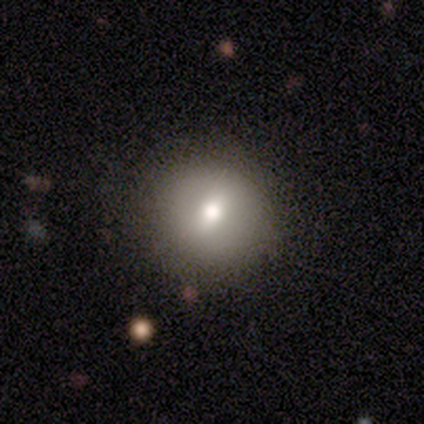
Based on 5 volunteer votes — Q: Smooth or featured?
A: smooth (40%); tied with: featured or disk (40%)
Q: How rounded?
A: round (100%)
Q: Merging?
A: none (100%)